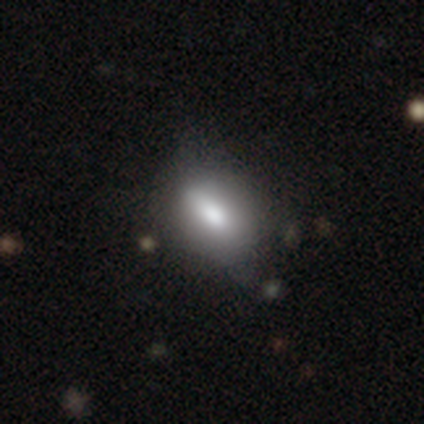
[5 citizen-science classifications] This is clearly a smooth galaxy (80%). How rounded: possibly round (50%). Merging: marginally none (40%).